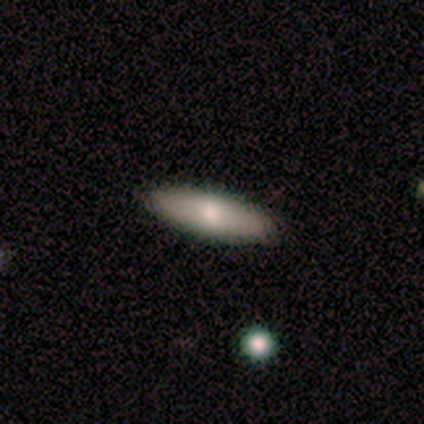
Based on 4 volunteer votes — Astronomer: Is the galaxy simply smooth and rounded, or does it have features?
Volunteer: smooth — 75%.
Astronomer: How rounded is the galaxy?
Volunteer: in between — 67%.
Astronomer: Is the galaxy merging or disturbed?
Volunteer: none — 100%.